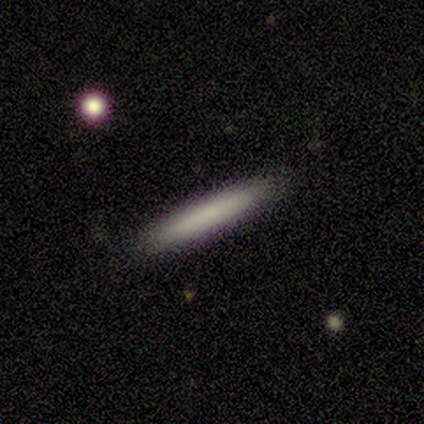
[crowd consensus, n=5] smooth-or-featured: smooth: 80% | featured or disk: 20% | star or artifact: 0%
  how-rounded: cigar-shaped: 100% | round: 0% | in between: 0%
  merging: none: 80% | minor disturbance: 20% | major disturbance: 0% | merger: 0%